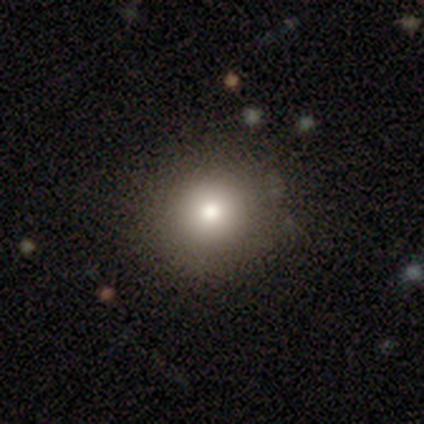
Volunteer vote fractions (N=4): smooth 50% (tied), featured or disk 50% (tied), star or artifact 0%. Down the decision tree: how rounded — round (50%, tied with in between); merging — none (100%).